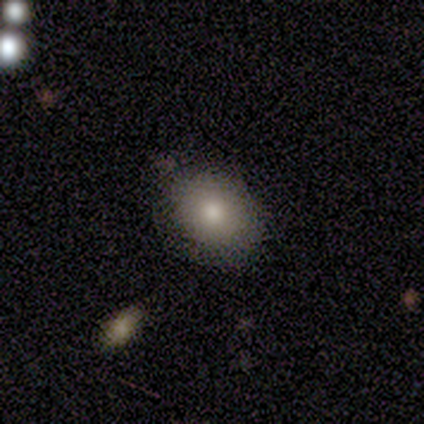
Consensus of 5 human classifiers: Morphology: type=smooth (100%); roundness=round (60%); merging=none (60%).